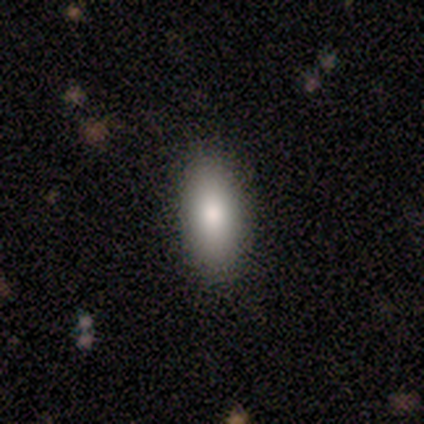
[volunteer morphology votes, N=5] Smooth or featured? smooth (60%)
How rounded? in between (100%)
Merging? none (100%)